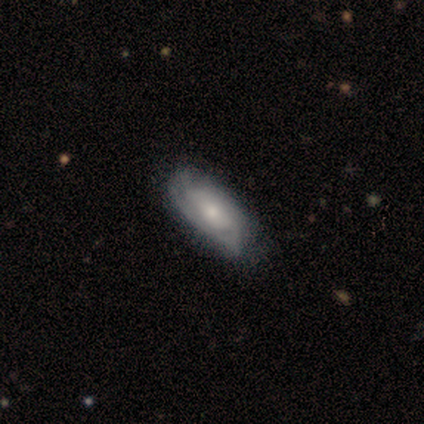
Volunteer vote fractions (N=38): This is likely a featured or disk galaxy (61%). It is clearly not viewed edge-on (87%). Bar: likely no (70%). Spiral arm pattern: clearly yes (80%). Spiral arm count: likely can't tell (75%). Spiral winding: likely tight (69%). Central bulge: possibly small (55%). Merging: marginally none (26%).